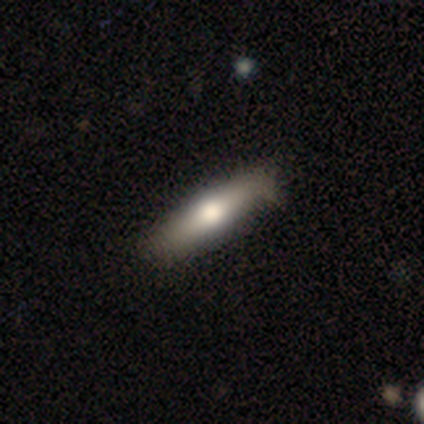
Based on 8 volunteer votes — Morphology: type=smooth (100%); roundness=cigar-shaped (62%); merging=none (75%).